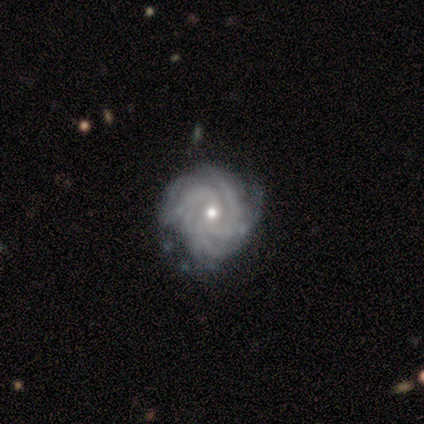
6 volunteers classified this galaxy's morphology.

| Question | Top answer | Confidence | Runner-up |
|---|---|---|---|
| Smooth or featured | featured or disk | 100% | — |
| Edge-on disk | no | 100% | — |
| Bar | no | 83% | weak (17%) |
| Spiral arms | yes | 100% | — |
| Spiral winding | tight | 67% | medium (33%) |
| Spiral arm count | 3 | 50% | 4 (17%) |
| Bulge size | moderate | 83% | small (17%) |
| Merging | none | 67% | minor disturbance (33%) |